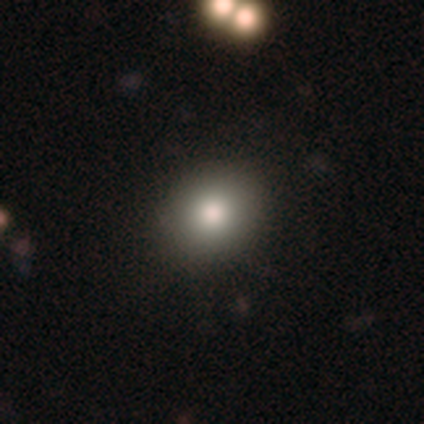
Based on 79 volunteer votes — smooth 90%, featured or disk 6%, star or artifact 4%. Down the decision tree: how rounded — round (66%); merging — none (46%).